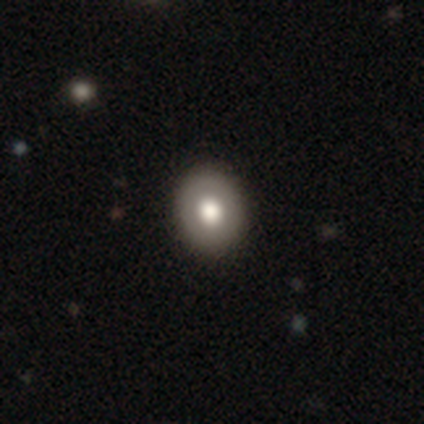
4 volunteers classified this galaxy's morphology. smooth_or_featured: smooth (p=0.75) [alt: featured or disk p=0.25]
how_rounded: round (p=1.00)
merging: none (p=1.00)